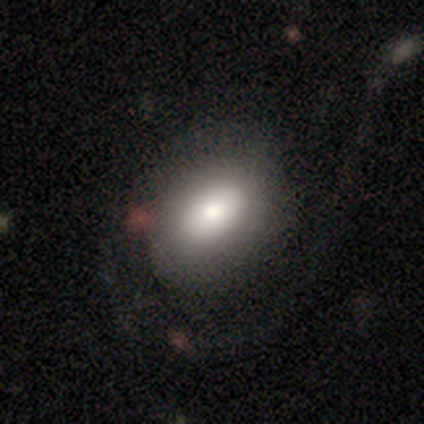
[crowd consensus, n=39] smooth_or_featured: smooth (p=0.77) [alt: featured or disk p=0.23]
how_rounded: in between (p=0.77) [alt: round p=0.23]
merging: none (p=0.46) [alt: major disturbance p=0.41]